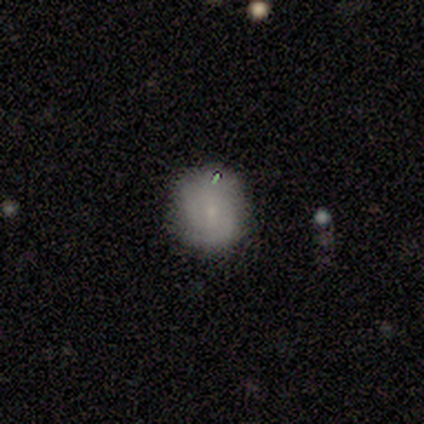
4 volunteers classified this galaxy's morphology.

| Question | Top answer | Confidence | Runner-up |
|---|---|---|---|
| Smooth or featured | smooth | 75% | featured or disk (25%) |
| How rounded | round | 100% | — |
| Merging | none | 75% | minor disturbance (25%) |